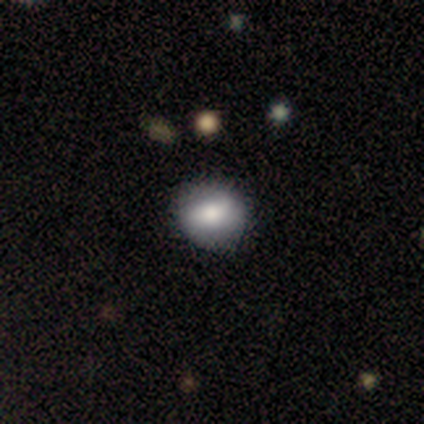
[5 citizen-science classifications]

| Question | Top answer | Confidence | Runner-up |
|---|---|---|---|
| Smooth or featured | featured or disk | 80% | smooth (20%) |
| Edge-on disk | no | 75% | yes (25%) |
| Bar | no | 67% | weak (33%) |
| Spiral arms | no | 67% | yes (33%) |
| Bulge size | moderate | 67% | large (33%) |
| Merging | none | 100% | — |